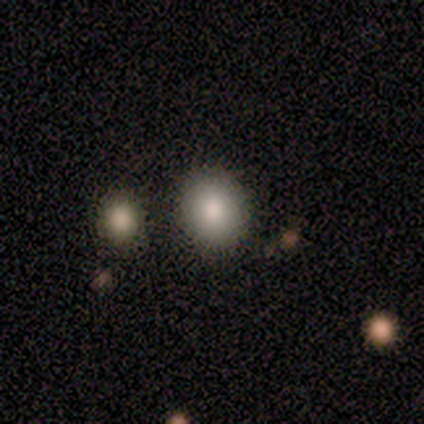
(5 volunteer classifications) smooth-or-featured: smooth: 100% | featured or disk: 0% | star or artifact: 0%
  how-rounded: round: 80% | in between: 20% | cigar-shaped: 0%
  merging: none: 100% | minor disturbance: 0% | major disturbance: 0% | merger: 0%